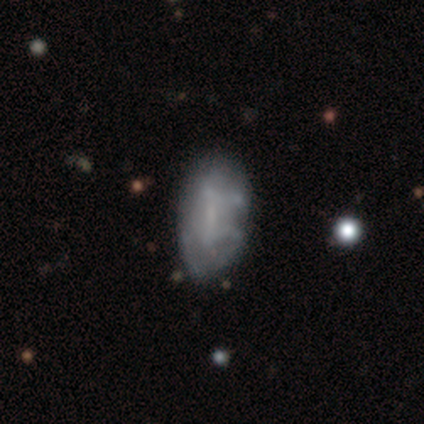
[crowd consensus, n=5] Smooth or featured?
  - smooth: 40% * (tied)
  - featured or disk: 40% * (tied)
  - star or artifact: 20%
How rounded?
  - in between: 100% *
  - round: 0%
  - cigar-shaped: 0%
Merging?
  - none: 75% *
  - minor disturbance: 25%
  - major disturbance: 0%
  - merger: 0%